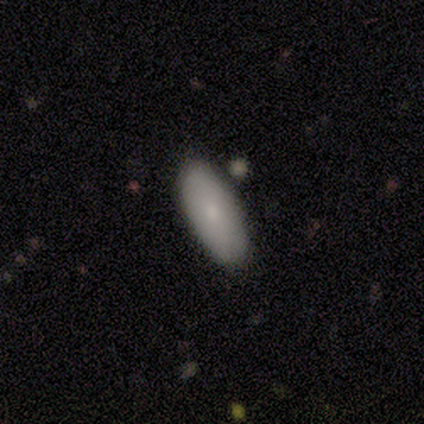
smooth-or-featured: smooth: 80% | featured or disk: 20% | star or artifact: 0%
  how-rounded: in between: 100% | round: 0% | cigar-shaped: 0%
  merging: none: 60% | minor disturbance: 20% | merger: 20% | major disturbance: 0%